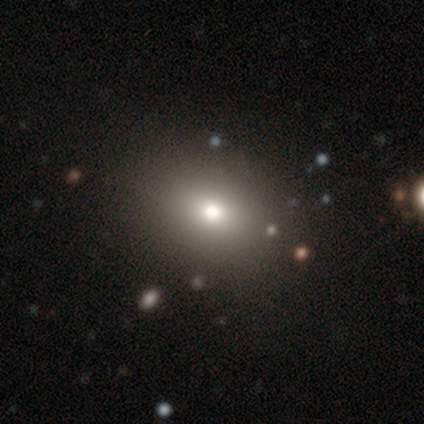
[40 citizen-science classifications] smooth 68%, star or artifact 18%, featured or disk 15%. Down the decision tree: how rounded — in between (52%); merging — none (73%).